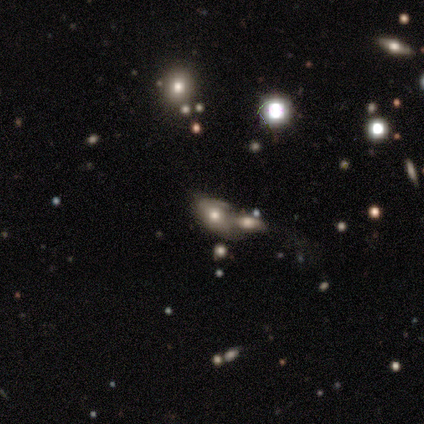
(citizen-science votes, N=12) This is possibly a smooth galaxy (58%). How rounded: clearly in between (100%). Merging: likely merger (78%).